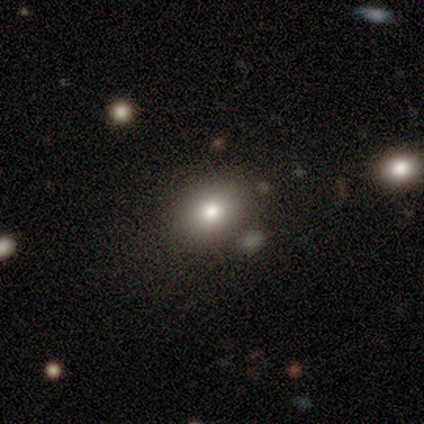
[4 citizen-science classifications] smooth_or_featured: smooth (p=0.75) [alt: featured or disk p=0.25]
how_rounded: in between (p=1.00)
merging: none (p=0.75) [alt: major disturbance p=0.25]